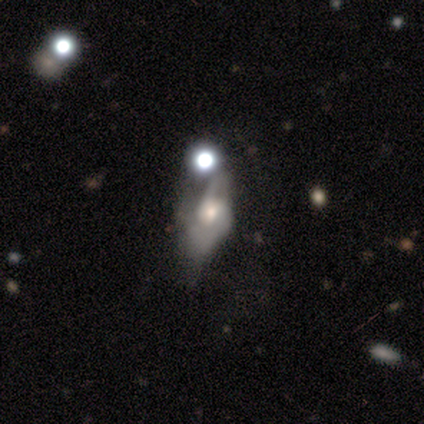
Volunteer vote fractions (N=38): smooth_or_featured: featured or disk (p=0.74) [alt: smooth p=0.26]
disk_edge_on: no (p=0.89) [alt: yes p=0.11]
bar: no (p=0.68) [alt: weak p=0.28]
has_spiral_arms: yes (p=0.68) [alt: no p=0.32]
spiral_winding: medium (p=0.47) [alt: loose p=0.35]
spiral_arm_count: 2 (p=0.47) [alt: 1 p=0.29]
bulge_size: moderate (p=0.56) [alt: small p=0.32]
merging: major disturbance (p=0.39) [alt: merger p=0.24]